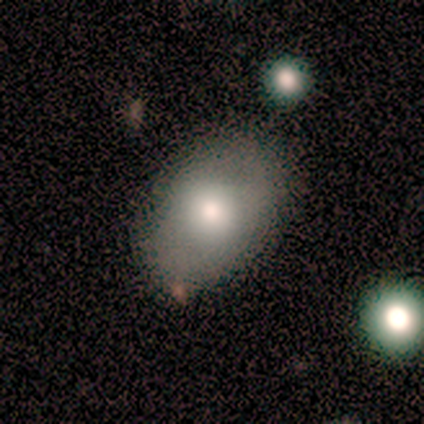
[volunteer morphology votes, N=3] A smooth galaxy with no disk features (67%) that is in between round and cigar-shaped (100%).

Vote fractions:
- Smooth or featured? smooth: 67% / featured or disk: 33% / star or artifact: 0%
- How rounded? in between: 100% / round: 0% / cigar-shaped: 0%
- Merging? none: 67% / minor disturbance: 33% / major disturbance: 0% / merger: 0%